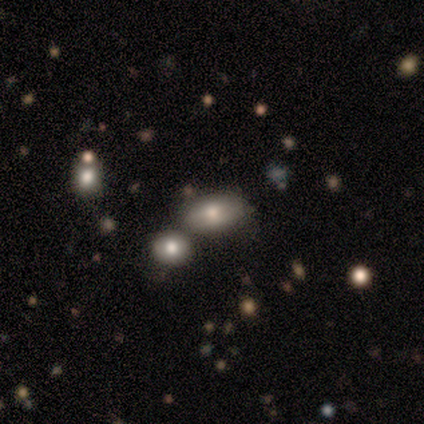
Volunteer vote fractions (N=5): Smooth or featured: smooth — 80% (featured or disk — 20%)
How rounded: in between — 100%
Merging: none — 80% (minor disturbance — 20%)